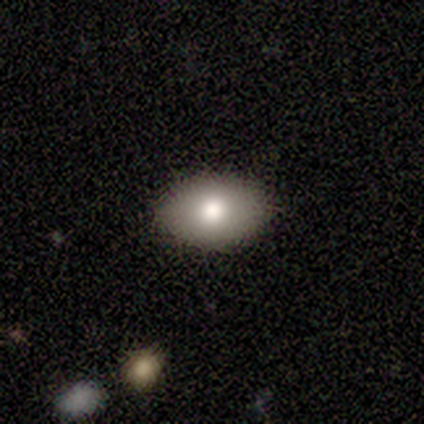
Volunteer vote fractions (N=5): smooth_or_featured: smooth (p=0.80) [alt: star or artifact p=0.20]
how_rounded: in between (p=0.75) [alt: round p=0.25]
merging: none (p=0.75) [alt: minor disturbance p=0.25]